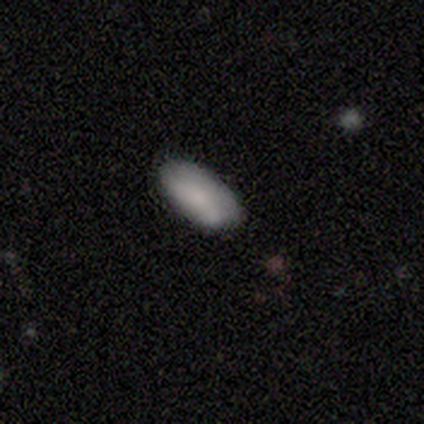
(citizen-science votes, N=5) Smooth or featured? smooth (60%)
How rounded? in between (100%)
Merging? minor disturbance (80%)